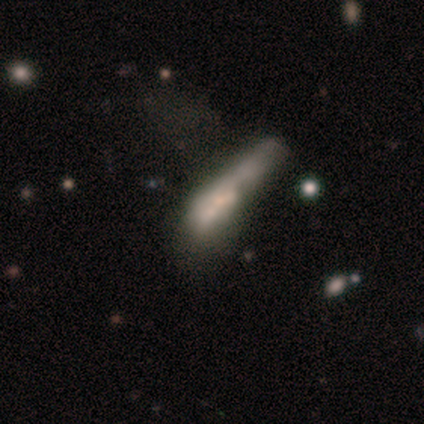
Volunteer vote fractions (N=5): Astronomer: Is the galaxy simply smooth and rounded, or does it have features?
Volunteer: featured or disk — 60% (runner-up: smooth, 40%).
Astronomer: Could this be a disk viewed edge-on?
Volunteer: no — 67%.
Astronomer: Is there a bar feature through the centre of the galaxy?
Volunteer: weak — 50%, tied with no at 50%.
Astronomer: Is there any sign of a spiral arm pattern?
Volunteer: yes — 50%, tied with no at 50%.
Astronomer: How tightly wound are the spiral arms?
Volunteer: medium — 100%.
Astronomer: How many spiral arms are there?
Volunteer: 2 — 100%.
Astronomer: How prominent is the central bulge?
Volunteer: large — 50%, tied with moderate at 50%.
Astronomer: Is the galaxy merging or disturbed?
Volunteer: merger — 80%.